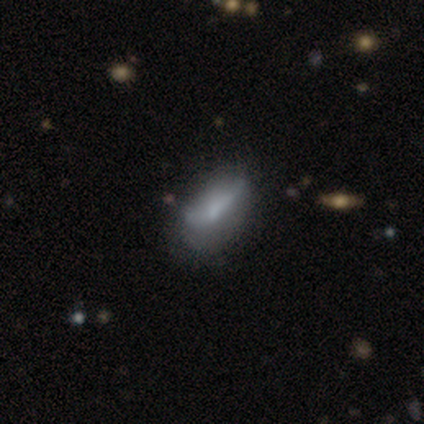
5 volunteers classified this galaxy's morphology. smooth_or_featured: smooth (p=0.80) [alt: featured or disk p=0.20]
how_rounded: in between (p=1.00)
merging: none (p=0.40) [tied with: major disturbance p=0.40]